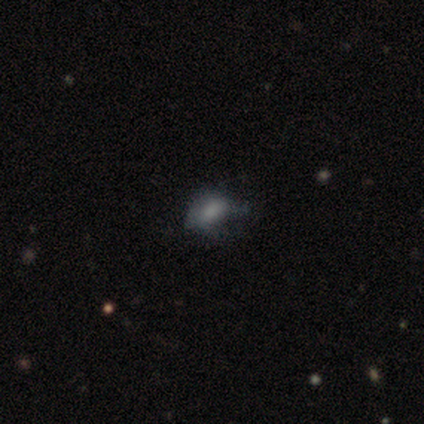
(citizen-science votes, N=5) Volunteers were most divided on "merging": minor disturbance: 60%, none: 20%, major disturbance: 20%, merger: 0%. More confident: smooth or featured — smooth (100%); how rounded — in between (100%).